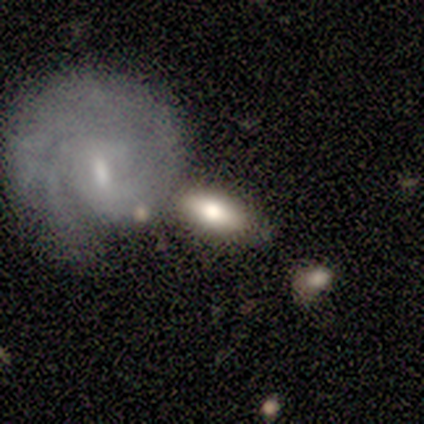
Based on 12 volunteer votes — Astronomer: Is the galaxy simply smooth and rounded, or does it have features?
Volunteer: smooth — 58%.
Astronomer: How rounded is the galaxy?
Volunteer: in between — 86%.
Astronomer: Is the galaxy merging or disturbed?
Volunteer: none — 82%.